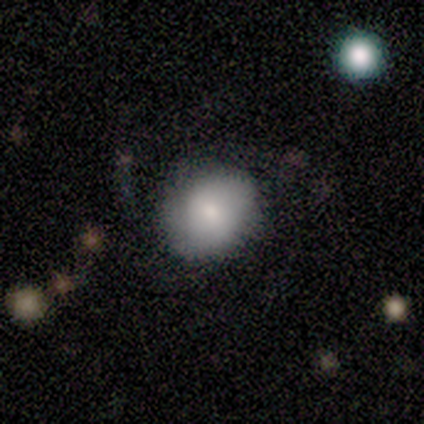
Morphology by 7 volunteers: Smooth or featured?
  - smooth: 71% *
  - featured or disk: 14%
  - star or artifact: 14%
How rounded?
  - round: 60% *
  - in between: 40%
  - cigar-shaped: 0%
Merging?
  - none: 100% *
  - minor disturbance: 0%
  - major disturbance: 0%
  - merger: 0%